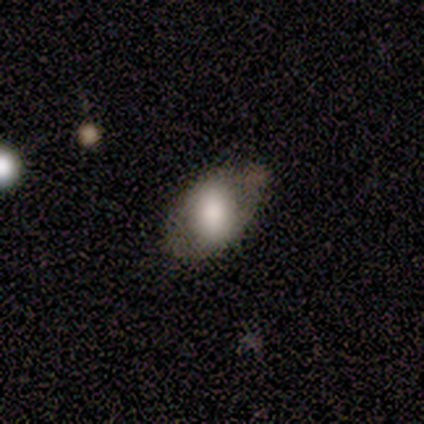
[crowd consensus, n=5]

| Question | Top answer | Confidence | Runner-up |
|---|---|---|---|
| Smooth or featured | smooth | 60% | featured or disk (40%) |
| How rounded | in between | 100% | — |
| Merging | none | 80% | minor disturbance (20%) |